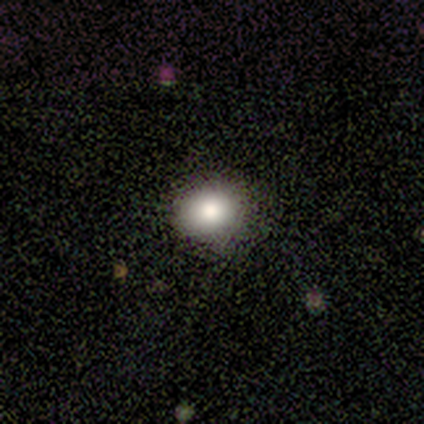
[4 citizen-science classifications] Smooth or featured?
  - smooth: 75% *
  - featured or disk: 25%
  - star or artifact: 0%
How rounded?
  - round: 67% *
  - in between: 33%
  - cigar-shaped: 0%
Merging?
  - none: 100% *
  - minor disturbance: 0%
  - major disturbance: 0%
  - merger: 0%